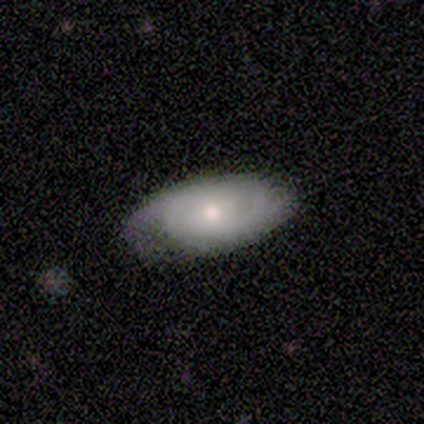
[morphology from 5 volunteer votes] This is clearly a featured or disk galaxy (80%). It is clearly not viewed edge-on (100%). Bar: possibly weak (50%, tied with no). Spiral arm pattern: clearly yes (100%). Spiral arm count: likely 2 (75%). Spiral winding: clearly medium (100%). Central bulge: possibly moderate (50%, tied with small). Merging: clearly none (100%).